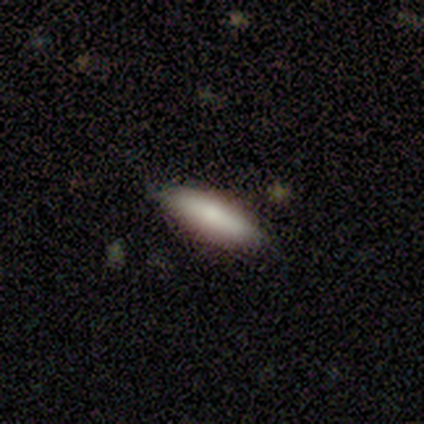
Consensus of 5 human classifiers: smooth_or_featured: smooth (p=0.80) [alt: star or artifact p=0.20]
how_rounded: in between (p=0.75) [alt: round p=0.25]
merging: minor disturbance (p=0.50) [alt: none p=0.25]